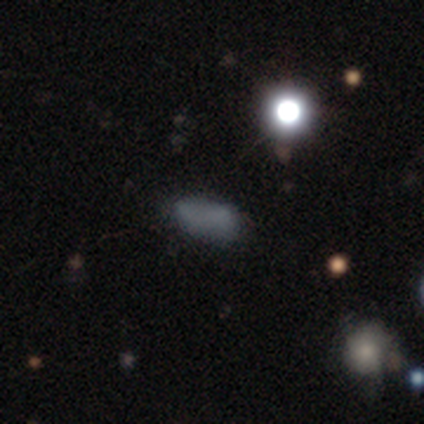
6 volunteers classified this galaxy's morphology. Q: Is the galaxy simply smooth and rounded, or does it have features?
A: smooth — 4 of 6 (67%).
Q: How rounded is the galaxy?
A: in between — 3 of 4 (75%).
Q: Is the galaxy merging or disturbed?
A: none — 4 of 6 (67%).